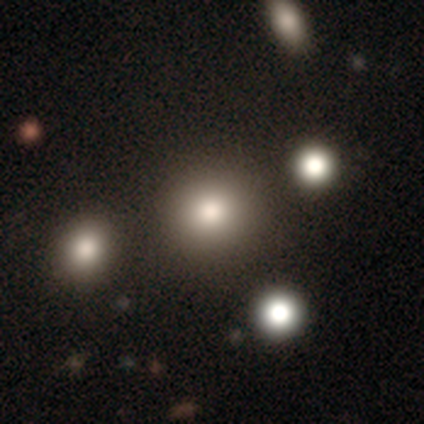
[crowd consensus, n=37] Morphology: type=smooth (70%); roundness=round (88%); merging=none (81%).